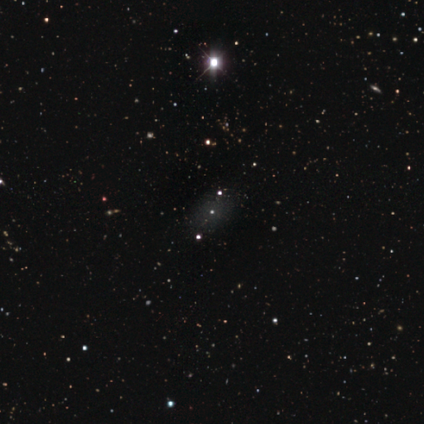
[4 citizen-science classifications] smooth_or_featured: smooth (p=0.75) [alt: star or artifact p=0.25]
how_rounded: in between (p=1.00)
merging: none (p=0.67) [alt: minor disturbance p=0.33]